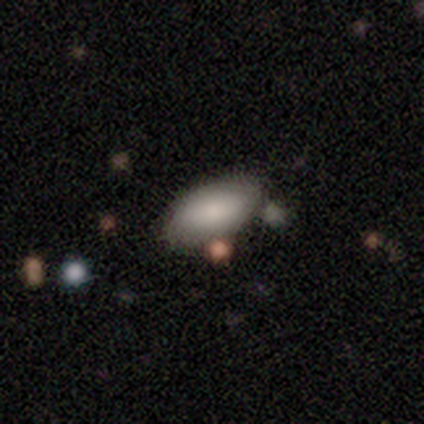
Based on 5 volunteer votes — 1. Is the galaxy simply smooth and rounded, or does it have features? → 60% smooth, 20% featured or disk, 20% star or artifact.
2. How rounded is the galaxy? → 100% in between, 0% round, 0% cigar-shaped.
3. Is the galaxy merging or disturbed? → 50% major disturbance, 25% none, 25% minor disturbance, 0% merger.